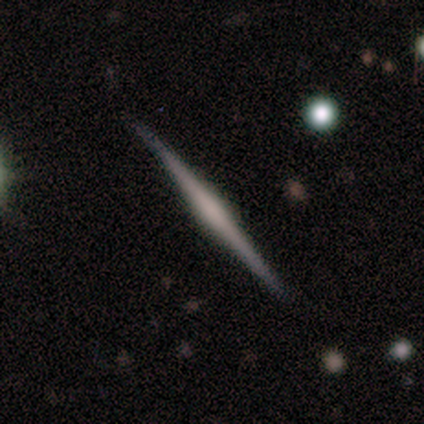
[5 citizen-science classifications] Smooth or featured?
  - featured or disk: 60% *
  - smooth: 20%
  - star or artifact: 20%
Edge-on disk?
  - yes: 100% *
  - no: 0%
Edge-on bulge?
  - rounded: 67% *
  - boxy: 33%
  - none: 0%
Merging?
  - none: 75% *
  - minor disturbance: 25%
  - major disturbance: 0%
  - merger: 0%